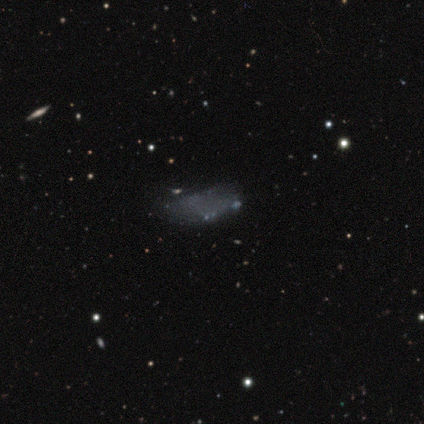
Morphology: type=star or artifact (50%).